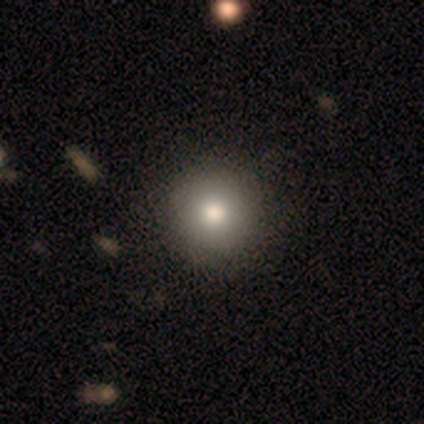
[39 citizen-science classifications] This is likely a smooth galaxy (77%). How rounded: clearly round (90%). Merging: clearly none (88%).